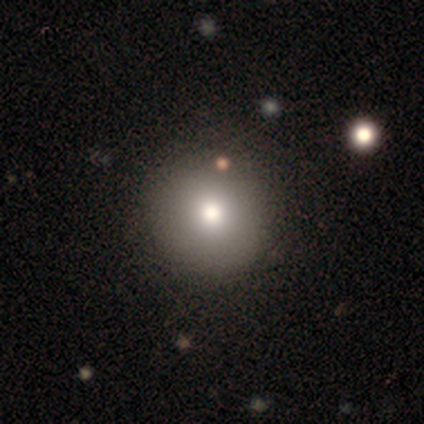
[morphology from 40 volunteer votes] smooth-or-featured: smooth: 88% | star or artifact: 10% | featured or disk: 2%
  how-rounded: round: 94% | in between: 6% | cigar-shaped: 0%
  merging: none: 56% | minor disturbance: 6% | merger: 6% | major disturbance: 0%